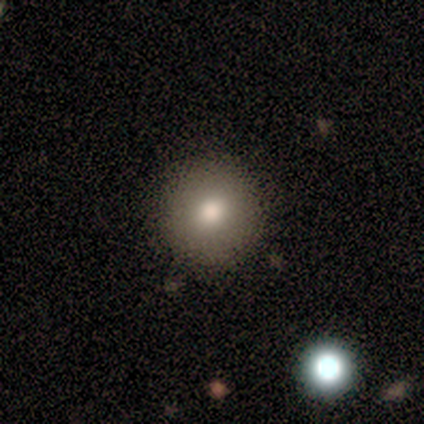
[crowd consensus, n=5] This is clearly a smooth galaxy (100%). How rounded: clearly round (100%). Merging: clearly none (80%).